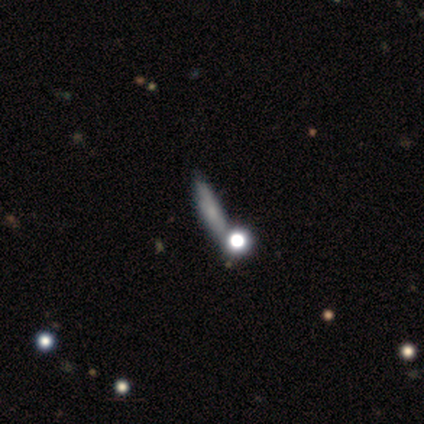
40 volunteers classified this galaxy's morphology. This appears to be a smooth galaxy with no disk features (50%) that is cigar-shaped (90%). Merging: none (74%).